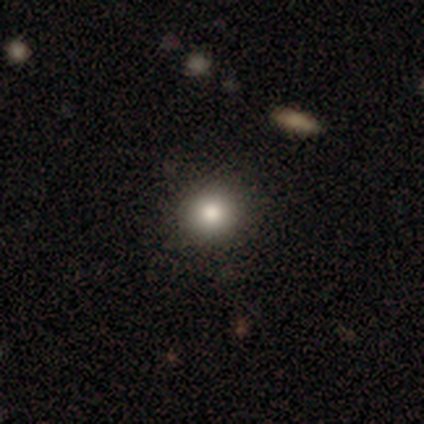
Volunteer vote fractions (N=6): A smooth galaxy with no disk features (83%) that is round (80%). Merging: none (80%).